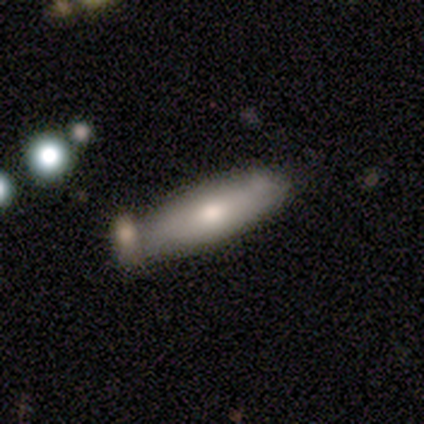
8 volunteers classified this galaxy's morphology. Smooth or featured: smooth — 75% (featured or disk — 25%)
How rounded: cigar-shaped — 50% (in between — 33%)
Merging: none — 62% (minor disturbance — 12%)